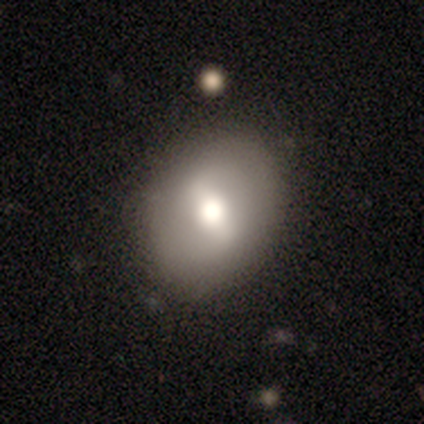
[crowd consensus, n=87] Smooth or featured: smooth — 46% (featured or disk — 45%)
How rounded: round — 57% (in between — 35%)
Merging: none — 87% (minor disturbance — 9%)